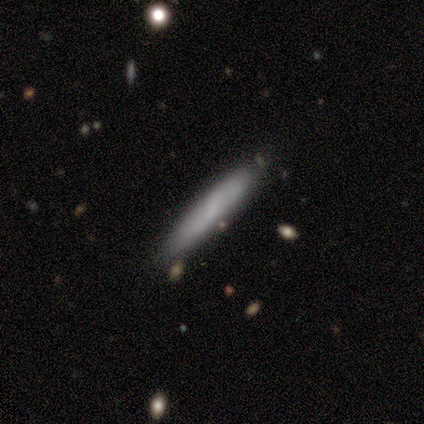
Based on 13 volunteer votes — Smooth or featured?
  - smooth: 69% *
  - featured or disk: 15%
  - star or artifact: 15%
How rounded?
  - cigar-shaped: 67% *
  - in between: 33%
  - round: 0%
Merging?
  - none: 82% *
  - minor disturbance: 18%
  - major disturbance: 0%
  - merger: 0%